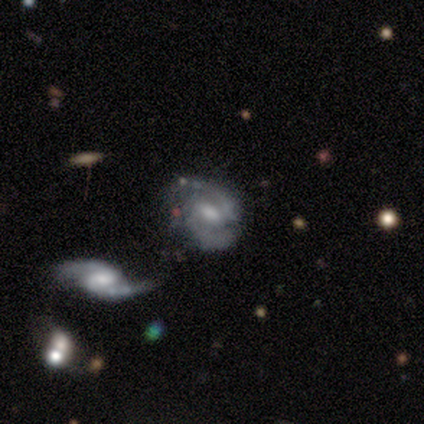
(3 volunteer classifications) Smooth or featured? 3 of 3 (100%) said featured or disk. Edge-on disk? 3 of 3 (100%) said no. Bar? 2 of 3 (67%) said weak. Spiral arms? 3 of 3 (100%) said yes. Spiral winding? 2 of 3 (67%) said loose. Spiral arm count? 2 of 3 (67%) said 2. Bulge size? 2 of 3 (67%) said small. Merging? 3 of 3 (100%) said none.